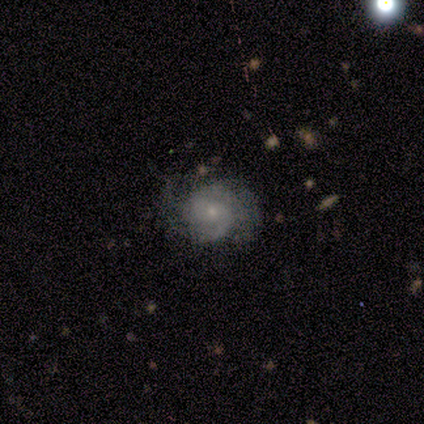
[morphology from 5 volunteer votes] Volunteers were most divided on "merging": none: 60%, major disturbance: 40%, minor disturbance: 0%, merger: 0%. More confident: edge-on disk — no (100%); bar — no (100%); spiral arms — yes (100%); smooth or featured — featured or disk (80%); spiral winding — tight (75%); bulge size — small (75%); spiral arm count — can't tell (50%).